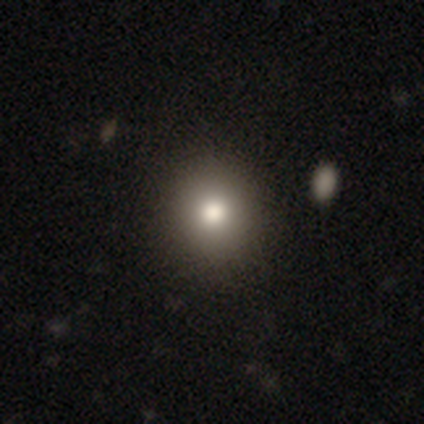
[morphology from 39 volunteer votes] Smooth or featured: smooth — 82% (featured or disk — 13%)
How rounded: round — 88% (in between — 12%)
Merging: none — 70% (minor disturbance — 3%)